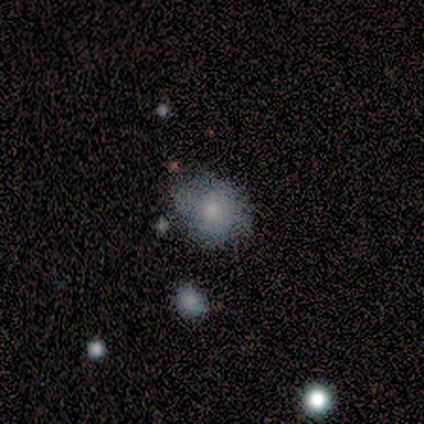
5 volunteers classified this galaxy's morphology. Volunteers were most divided on "merging": none: 60%, minor disturbance: 40%, major disturbance: 0%, merger: 0%. More confident: smooth or featured — smooth (80%); how rounded — round (75%).